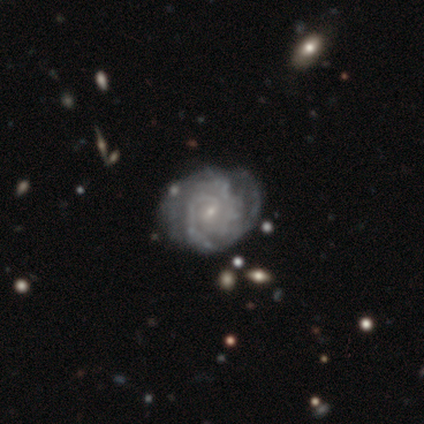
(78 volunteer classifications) featured or disk 94%, smooth 4%, star or artifact 3%. Down the decision tree: edge-on disk — no (99%); bar — weak (50%); spiral arms — yes (97%); spiral arm count — can't tell (34%); spiral winding — tight (77%); bulge size — small (89%); merging — none (42%).